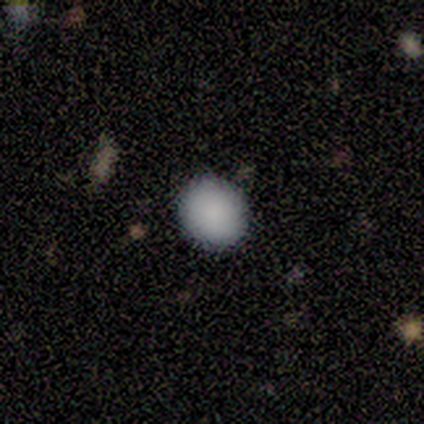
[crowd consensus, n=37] Overall: smooth (95%). How rounded: round (86%). Merging: none (92%).